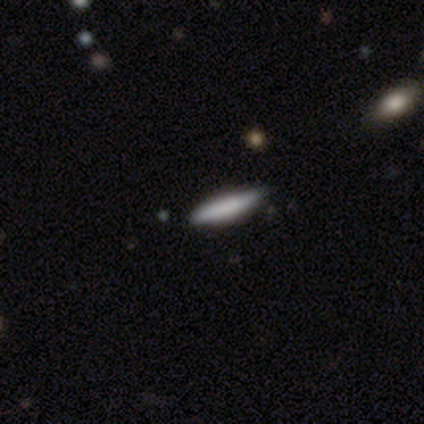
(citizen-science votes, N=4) Smooth or featured?
  - smooth: 50% * (tied)
  - featured or disk: 50% * (tied)
  - star or artifact: 0%
How rounded?
  - cigar-shaped: 100% *
  - round: 0%
  - in between: 0%
Merging?
  - none: 50% *
  - minor disturbance: 25%
  - major disturbance: 25%
  - merger: 0%